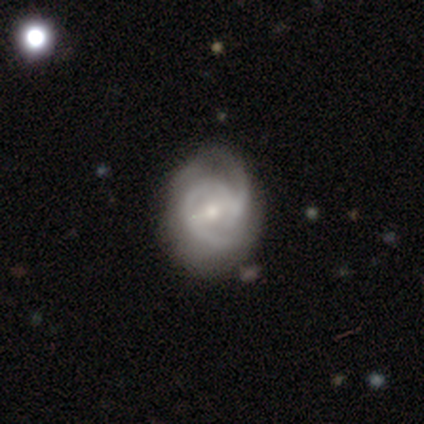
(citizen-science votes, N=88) This appears to be a featured or disk galaxy (80%) with a weak bar (53%), 2 (62%) tight (51%) spiral arms (98%) and a small central bulge (58%). Merging: none (66%).